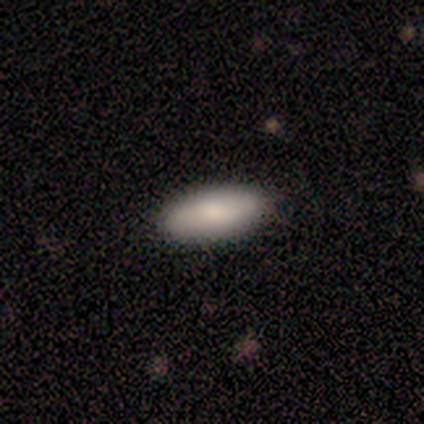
Overall: smooth (80%). How rounded: in between (75%). Merging: none (80%).